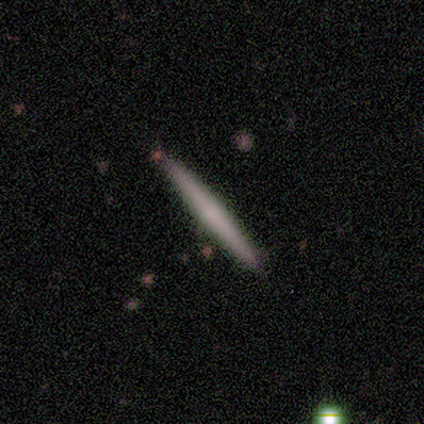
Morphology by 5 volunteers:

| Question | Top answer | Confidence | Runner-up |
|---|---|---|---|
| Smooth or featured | smooth | 60% | featured or disk (40%) |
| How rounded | cigar-shaped | 100% | — |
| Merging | none | 80% | major disturbance (20%) |